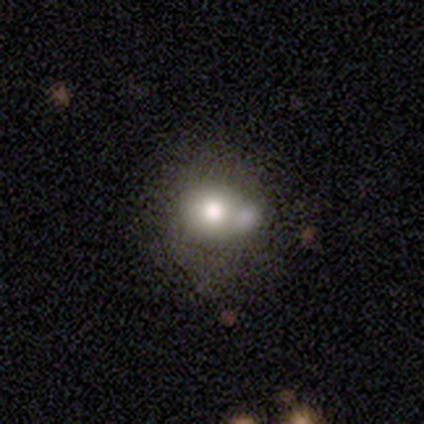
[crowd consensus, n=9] smooth_or_featured: smooth (p=0.44) [alt: featured or disk p=0.33]
how_rounded: round (p=0.50) [tied with: in between p=0.50]
merging: merger (p=0.57) [alt: minor disturbance p=0.29]